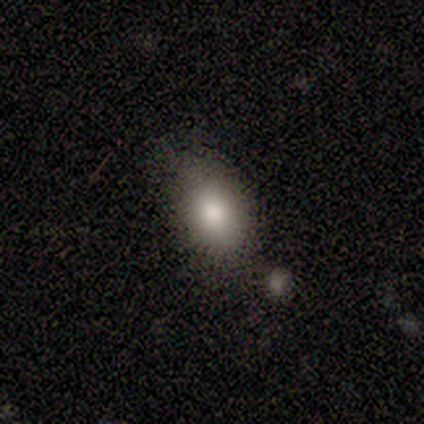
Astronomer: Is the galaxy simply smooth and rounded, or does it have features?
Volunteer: smooth — 100%.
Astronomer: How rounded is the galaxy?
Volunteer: in between — 60% (runner-up: round, 40%).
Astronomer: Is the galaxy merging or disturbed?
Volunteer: none — 100%.